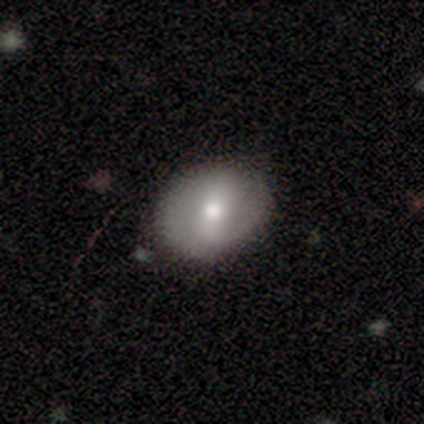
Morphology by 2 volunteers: This appears to be a smooth galaxy with no disk features (50%, tied with featured or disk) that is in between round and cigar-shaped (100%). Merging: none (100%).